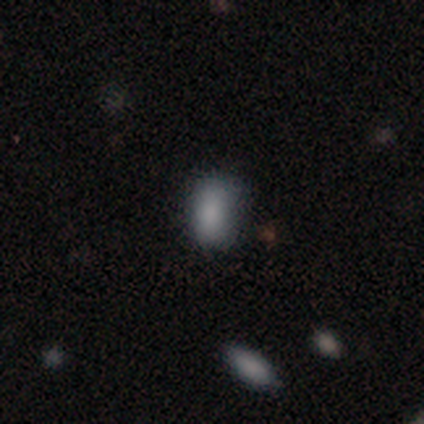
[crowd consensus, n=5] Smooth or featured: smooth — 80% (star or artifact — 20%)
How rounded: in between — 100%
Merging: none — 75% (minor disturbance — 25%)